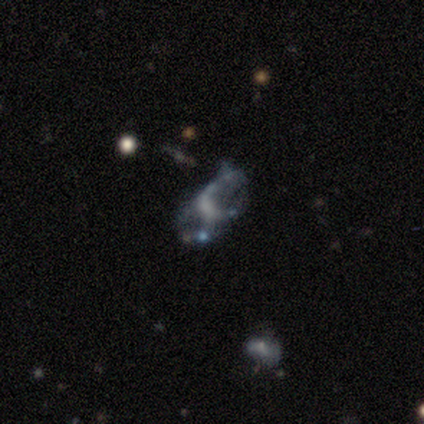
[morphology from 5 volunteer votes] type=featured or disk (80%); edge-on=no (100%); bar=weak (50%, tied with no); spiral arms=no (100%); bulge=none (75%); merging=none (50%, tied with major disturbance).